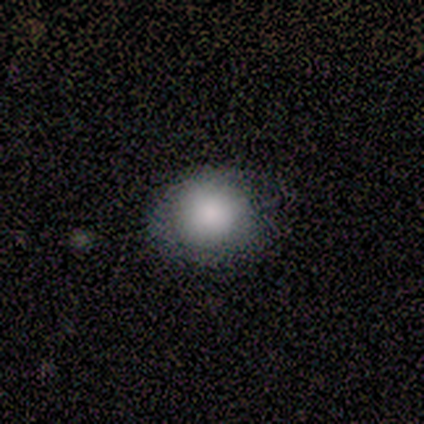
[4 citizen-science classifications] Morphology: type=smooth (100%); roundness=round (100%); merging=none (50%).